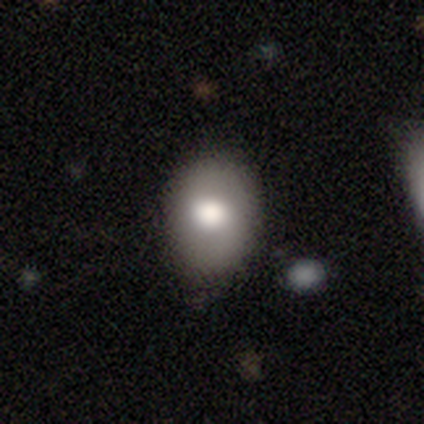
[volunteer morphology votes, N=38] Smooth or featured?
  - smooth: 76% *
  - featured or disk: 18%
  - star or artifact: 5%
How rounded?
  - in between: 62% *
  - round: 31%
  - cigar-shaped: 7%
Merging?
  - none: 75% *
  - minor disturbance: 22%
  - major disturbance: 3%
  - merger: 0%